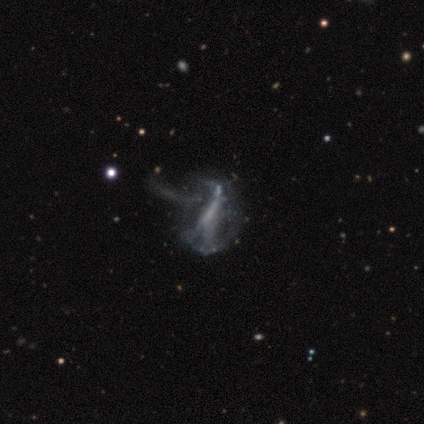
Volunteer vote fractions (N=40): Smooth or featured? featured or disk (72%)
Edge-on disk? no (100%)
Bar? strong (45%)
Spiral arms? no (72%)
Bulge size? none (66%)
Merging? major disturbance (36%)